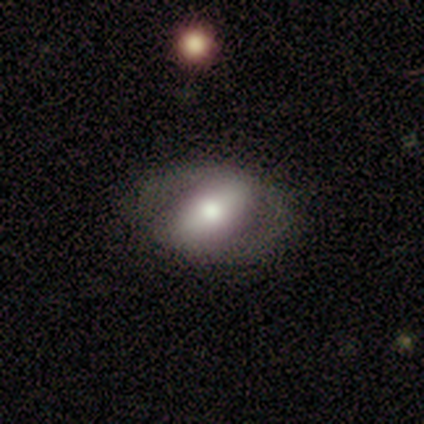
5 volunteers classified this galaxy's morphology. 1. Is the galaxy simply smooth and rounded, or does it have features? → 60% featured or disk, 40% smooth, 0% star or artifact.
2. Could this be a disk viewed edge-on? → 100% no, 0% yes.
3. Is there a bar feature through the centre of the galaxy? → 100% strong, 0% weak, 0% no.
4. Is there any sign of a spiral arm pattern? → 67% yes, 33% no.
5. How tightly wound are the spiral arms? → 100% medium, 0% tight, 0% loose.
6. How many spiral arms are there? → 100% 2, 0% 1, 0% 3, 0% 4, 0% more than 4, 0% can't tell.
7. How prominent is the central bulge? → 67% moderate, 33% small, 0% dominant, 0% large, 0% none.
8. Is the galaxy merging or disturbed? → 80% none, 20% minor disturbance, 0% major disturbance, 0% merger.